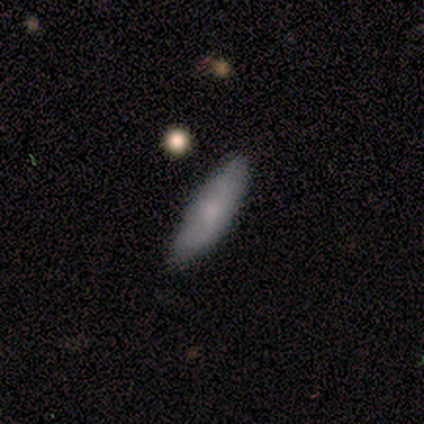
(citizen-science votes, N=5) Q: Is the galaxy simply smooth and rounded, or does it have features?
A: smooth — 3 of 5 (60%).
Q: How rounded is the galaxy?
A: cigar-shaped — 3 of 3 (100%).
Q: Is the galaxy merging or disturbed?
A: none — 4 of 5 (80%).